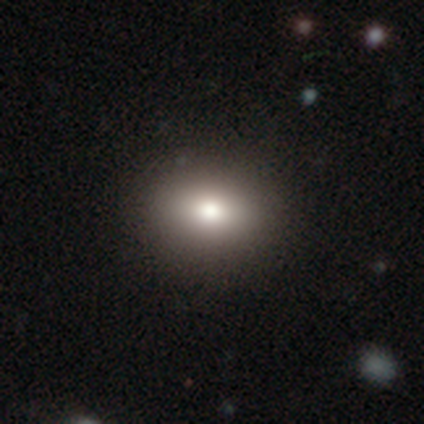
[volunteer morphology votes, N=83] Smooth or featured? smooth (69%)
How rounded? in between (63%)
Merging? none (94%)